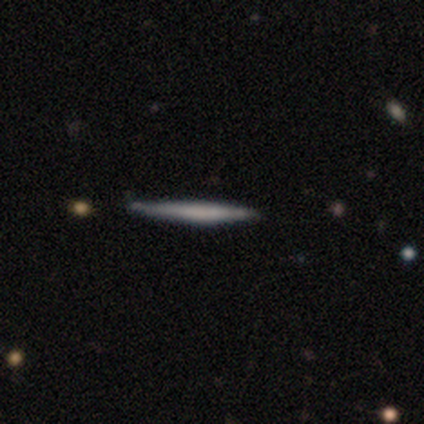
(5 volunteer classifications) A smooth galaxy with no disk features (60%) that is cigar-shaped (100%). Merging: none (80%).